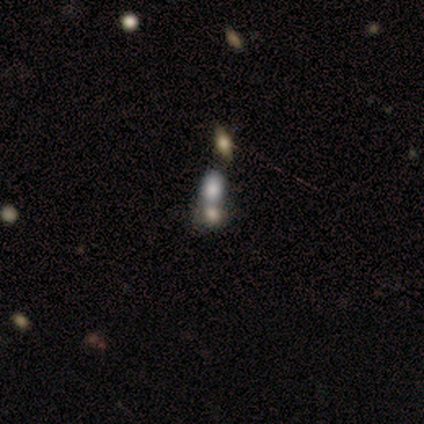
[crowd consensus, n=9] A featured or disk galaxy (44%) with no bar (100%), no spiral arms (75%) and no central bulge (50%).

Vote fractions:
- Smooth or featured? featured or disk: 44% / smooth: 33% / star or artifact: 22%
- Edge-on disk? no: 100% / yes: 0%
- Bar? no: 100% / strong: 0% / weak: 0%
- Spiral arms? no: 75% / yes: 25%
- Bulge size? none: 50% / dominant: 25% / small: 25% / large: 0% / moderate: 0%
- Merging? merger: 86% / none: 14% / minor disturbance: 0% / major disturbance: 0%